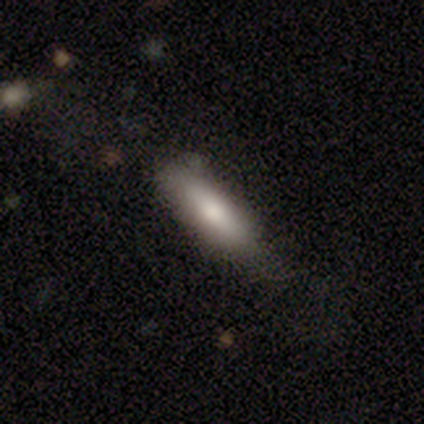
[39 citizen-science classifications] This appears to be a smooth galaxy with no disk features (85%) that is cigar-shaped (76%). Merging: none (82%).